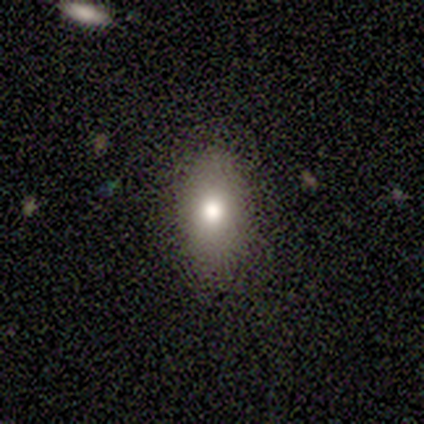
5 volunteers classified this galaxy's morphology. smooth 60%, featured or disk 20%, star or artifact 20%. Down the decision tree: how rounded — in between (100%); merging — none (100%).